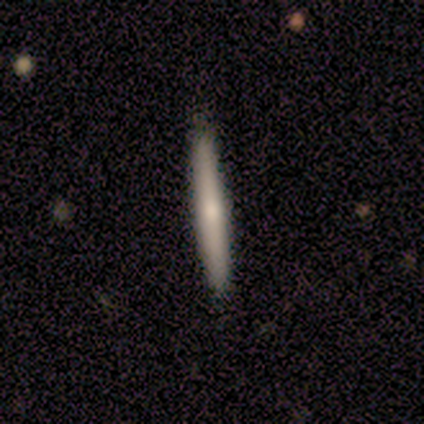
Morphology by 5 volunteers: A featured or disk galaxy (60%) viewed edge-on (100%) with a rounded central bulge (67%). Merging: none (100%).